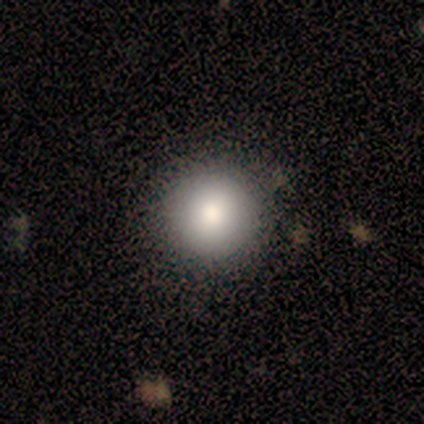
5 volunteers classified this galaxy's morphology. Smooth or featured: smooth — 80% (star or artifact — 20%)
How rounded: round — 100%
Merging: none — 75% (minor disturbance — 25%)